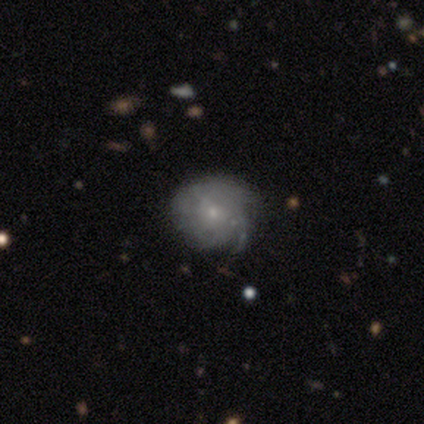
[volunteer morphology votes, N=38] A featured or disk galaxy (55%) with no bar (67%), tight (71%) spiral arms (81%) and a small central bulge (86%). Merging: none (62%).